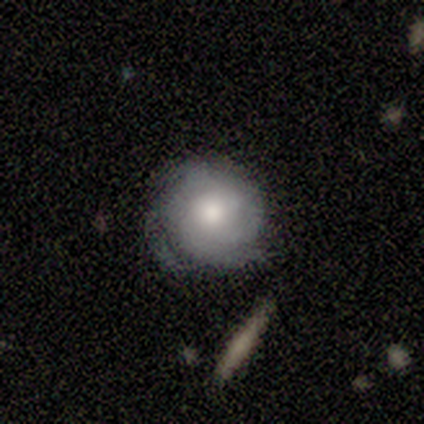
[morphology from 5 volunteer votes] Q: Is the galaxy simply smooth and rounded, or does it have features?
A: featured or disk — 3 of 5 (60%).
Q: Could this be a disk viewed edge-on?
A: no — 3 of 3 (100%).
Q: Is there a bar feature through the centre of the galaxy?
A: no — 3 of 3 (100%).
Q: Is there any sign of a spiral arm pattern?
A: yes — 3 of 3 (100%).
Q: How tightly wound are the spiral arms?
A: medium — 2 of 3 (67%).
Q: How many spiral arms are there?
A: can't tell — 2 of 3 (67%).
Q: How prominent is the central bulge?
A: large — 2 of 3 (67%).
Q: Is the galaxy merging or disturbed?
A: none — 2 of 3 (67%).